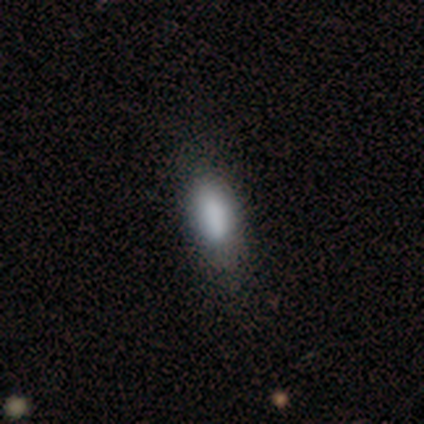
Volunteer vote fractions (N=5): smooth 60%, featured or disk 20%, star or artifact 20%. Down the decision tree: how rounded — in between (67%); merging — none (75%).